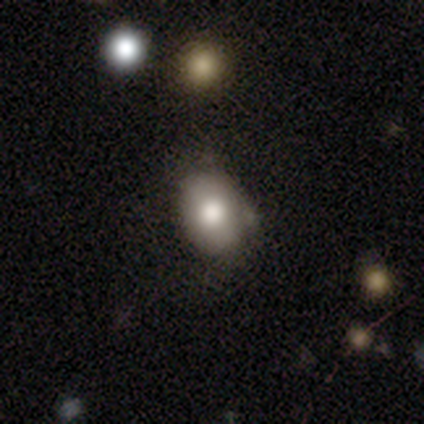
This appears to be a smooth galaxy with no disk features (81%) that is in between round and cigar-shaped (66%). Merging: none (66%).